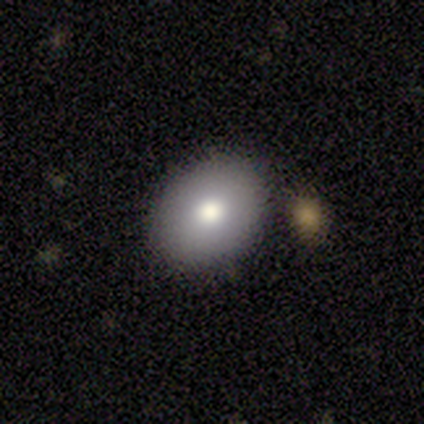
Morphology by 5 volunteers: This appears to be a smooth galaxy with no disk features (100%) that is in between round and cigar-shaped (100%). Merging: none (100%).